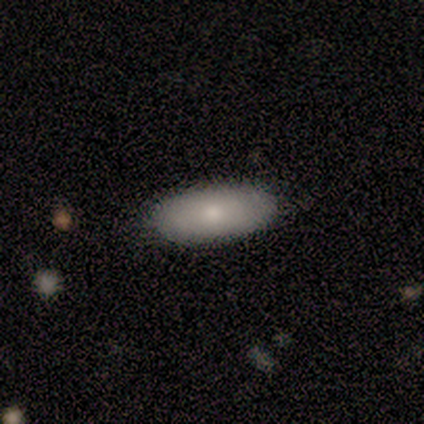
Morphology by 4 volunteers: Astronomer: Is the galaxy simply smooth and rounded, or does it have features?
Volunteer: smooth — 75%.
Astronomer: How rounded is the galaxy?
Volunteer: in between — 100%.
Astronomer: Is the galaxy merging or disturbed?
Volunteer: none — 67%.